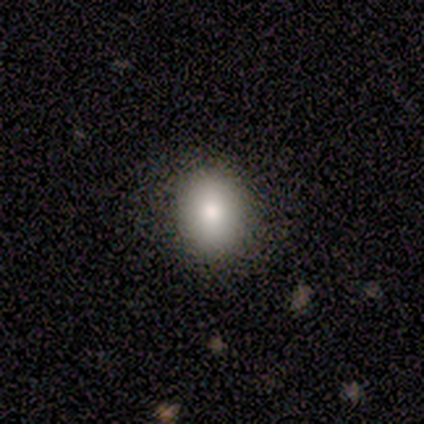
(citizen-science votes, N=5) smooth-or-featured: smooth: 100% | featured or disk: 0% | star or artifact: 0%
  how-rounded: in between: 60% | round: 40% | cigar-shaped: 0%
  merging: none: 100% | minor disturbance: 0% | major disturbance: 0% | merger: 0%